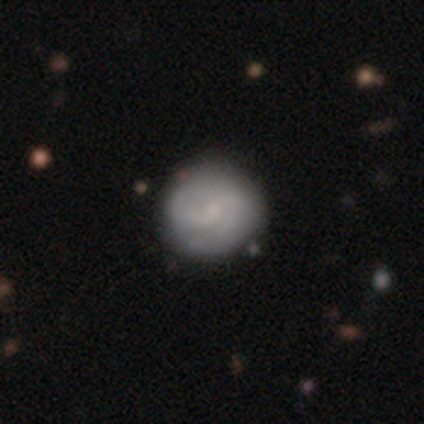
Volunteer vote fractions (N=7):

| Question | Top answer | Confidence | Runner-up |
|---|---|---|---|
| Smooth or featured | featured or disk | 71% | smooth (29%) |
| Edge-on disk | no | 100% | — |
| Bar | weak | 60% | strong (20%) |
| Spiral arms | yes | 100% | — |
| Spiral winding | medium | 40% | tied: loose (40%) |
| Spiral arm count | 2 | 100% | — |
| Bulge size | small | 60% | moderate (20%) |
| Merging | none | 71% | minor disturbance (29%) |